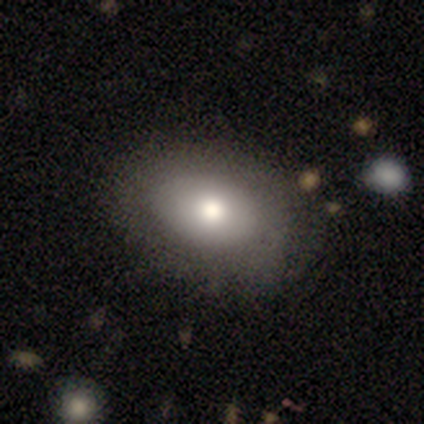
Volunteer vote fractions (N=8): smooth 88%, featured or disk 12%, star or artifact 0%. Down the decision tree: how rounded — in between (86%); merging — none (75%).